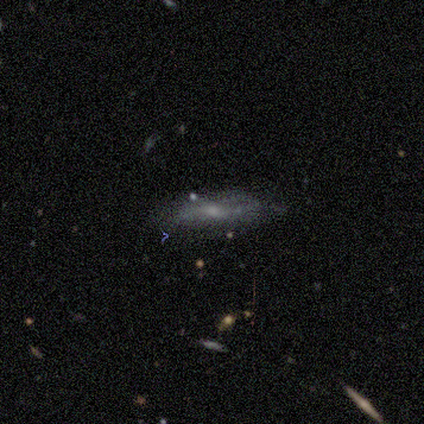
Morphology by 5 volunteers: smooth_or_featured: featured or disk (p=1.00)
disk_edge_on: no (p=0.60) [alt: yes p=0.40]
bar: weak (p=1.00)
has_spiral_arms: no (p=0.67) [alt: yes p=0.33]
bulge_size: small (p=0.67) [alt: none p=0.33]
merging: none (p=0.60) [alt: minor disturbance p=0.40]